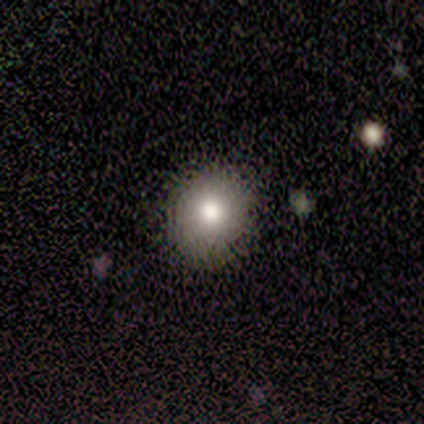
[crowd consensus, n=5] Overall: smooth (80%). How rounded: round (100%). Merging: none (100%).